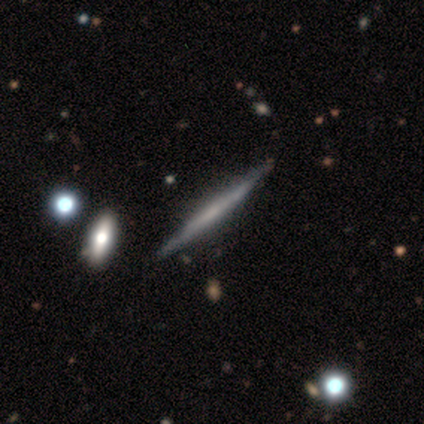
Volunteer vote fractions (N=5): Morphology: type=featured or disk (100%); edge-on=yes (100%); edge-on bulge=none (80%); merging=none (100%).